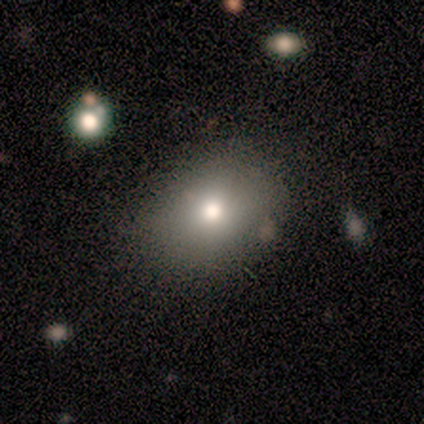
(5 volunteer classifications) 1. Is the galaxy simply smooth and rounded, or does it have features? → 80% smooth, 20% featured or disk, 0% star or artifact.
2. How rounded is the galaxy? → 50% round (tied), 50% in between (tied), 0% cigar-shaped.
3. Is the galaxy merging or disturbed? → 100% none, 0% minor disturbance, 0% major disturbance, 0% merger.